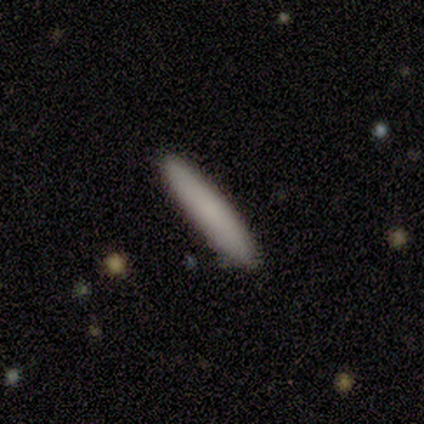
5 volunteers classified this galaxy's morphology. smooth_or_featured: smooth (p=0.80) [alt: featured or disk p=0.20]
how_rounded: cigar-shaped (p=1.00)
merging: none (p=0.80) [alt: minor disturbance p=0.20]